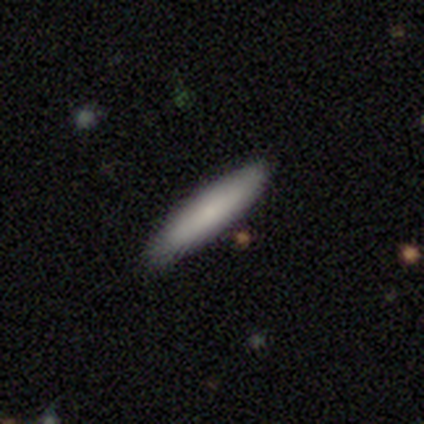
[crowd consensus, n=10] This is clearly a smooth galaxy (80%). How rounded: clearly cigar-shaped (88%). Merging: possibly none (56%).